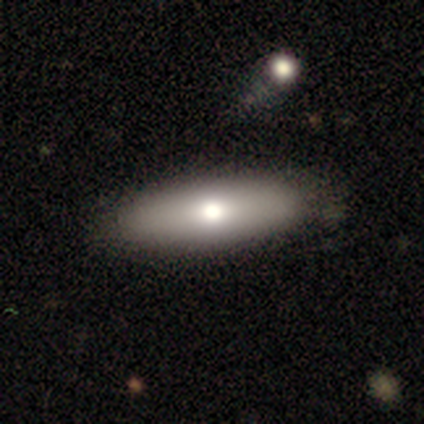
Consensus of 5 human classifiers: Volunteers were most divided on "how rounded": cigar-shaped: 60%, in between: 40%, round: 0%. More confident: smooth or featured — smooth (100%); merging — none (100%).